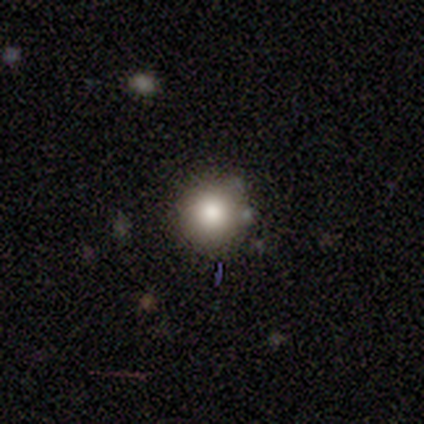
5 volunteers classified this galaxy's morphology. smooth_or_featured: smooth (p=0.80) [alt: featured or disk p=0.20]
how_rounded: round (p=1.00)
merging: none (p=1.00)